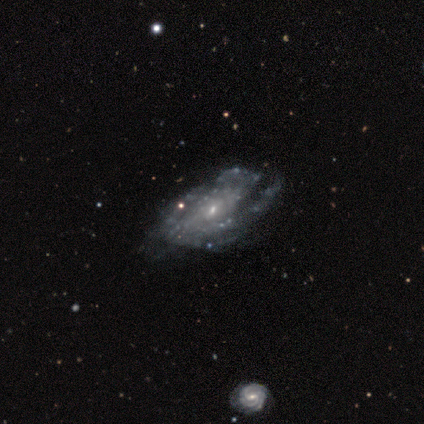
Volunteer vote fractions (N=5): Smooth or featured? 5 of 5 (100%) said featured or disk. Edge-on disk? 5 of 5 (100%) said no. Bar? 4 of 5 (80%) said weak. Spiral arms? 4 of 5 (80%) said yes. Spiral winding? 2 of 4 (50%) said tight. Spiral arm count? 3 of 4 (75%) said can't tell. Bulge size? 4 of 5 (80%) said small. Merging? 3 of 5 (60%) said none.